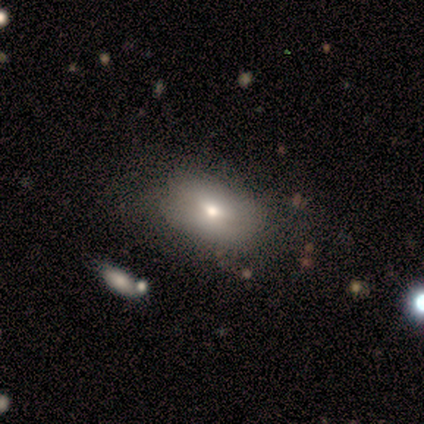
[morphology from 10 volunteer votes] smooth 70%, featured or disk 20%, star or artifact 10%. Down the decision tree: how rounded — in between (100%); merging — none (89%).